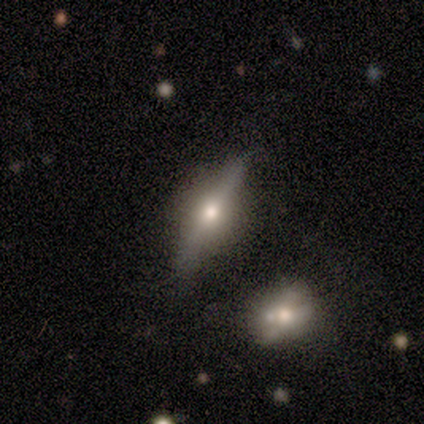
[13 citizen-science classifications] Morphology: type=featured or disk (85%); edge-on=yes (100%); edge-on bulge=rounded (91%); merging=none (69%).